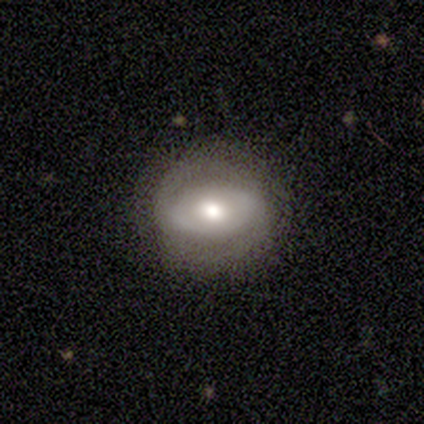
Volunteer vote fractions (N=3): Smooth or featured? featured or disk (67%)
Edge-on disk? no (100%)
Bar? no (100%)
Spiral arms? yes (100%)
Spiral winding? medium (50%, tied with loose)
Spiral arm count? 2 (100%)
Bulge size? moderate (100%)
Merging? none (100%)